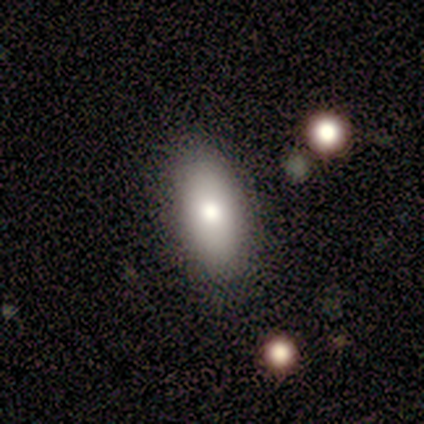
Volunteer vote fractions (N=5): Q: Smooth or featured?
A: smooth (60%); runner-up: featured or disk (40%)
Q: How rounded?
A: in between (67%); runner-up: cigar-shaped (33%)
Q: Merging?
A: none (60%); runner-up: minor disturbance (20%)